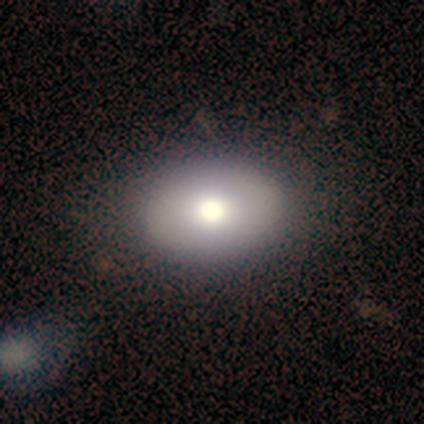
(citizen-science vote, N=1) Consensus on every question: smooth or featured — featured or disk (100%); edge-on disk — no (100%); bar — no (100%); spiral arms — no (100%); bulge size — moderate (100%); merging — none (100%).